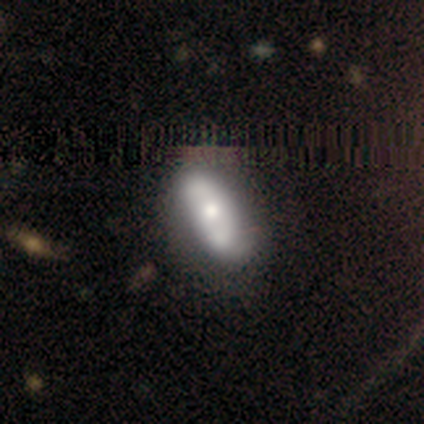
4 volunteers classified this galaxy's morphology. This is likely a smooth galaxy (75%). How rounded: clearly in between (100%). Merging: likely none (75%).